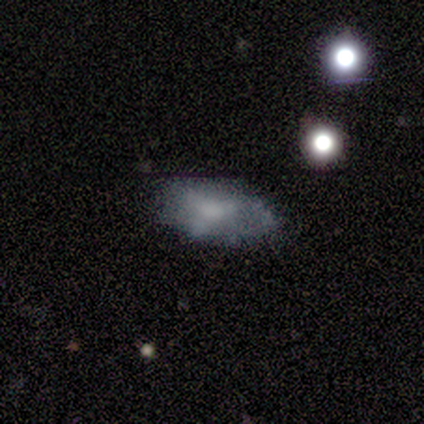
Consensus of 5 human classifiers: Volunteers were most divided on "merging": minor disturbance: 60%, none: 40%, major disturbance: 0%, merger: 0%. More confident: how rounded — in between (100%); smooth or featured — smooth (80%).